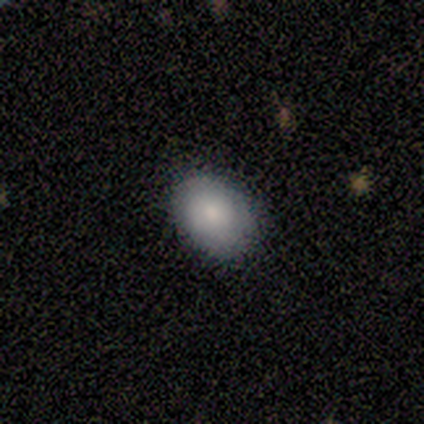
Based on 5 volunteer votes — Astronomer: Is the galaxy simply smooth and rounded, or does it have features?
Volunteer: smooth — 80%.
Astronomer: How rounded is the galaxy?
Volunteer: in between — 75%.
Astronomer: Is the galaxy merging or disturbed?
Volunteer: none — 75%.